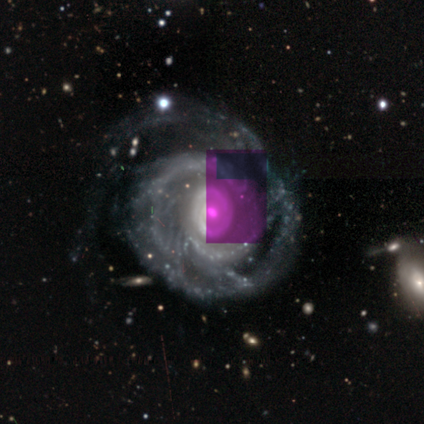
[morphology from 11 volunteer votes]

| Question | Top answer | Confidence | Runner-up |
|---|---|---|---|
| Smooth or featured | featured or disk | 100% | — |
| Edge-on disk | no | 100% | — |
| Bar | no | 100% | — |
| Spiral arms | yes | 100% | — |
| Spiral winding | tight | 82% | medium (18%) |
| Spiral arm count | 2 | 36% | 1 (18%) |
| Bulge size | moderate | 55% | small (45%) |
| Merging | none | 64% | minor disturbance (27%) |